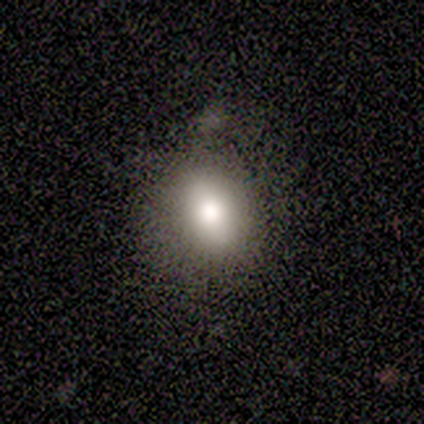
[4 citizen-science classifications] A smooth galaxy with no disk features (75%) that is in between round and cigar-shaped (67%).

Vote fractions:
- Smooth or featured? smooth: 75% / featured or disk: 25% / star or artifact: 0%
- How rounded? in between: 67% / round: 33% / cigar-shaped: 0%
- Merging? none: 50% / minor disturbance: 25% / major disturbance: 25% / merger: 0%